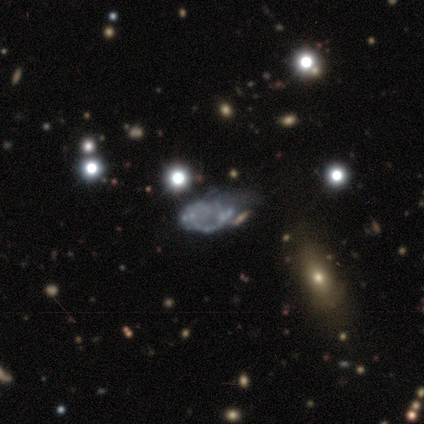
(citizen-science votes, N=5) Smooth or featured?
  - star or artifact: 60% *
  - smooth: 20%
  - featured or disk: 20%